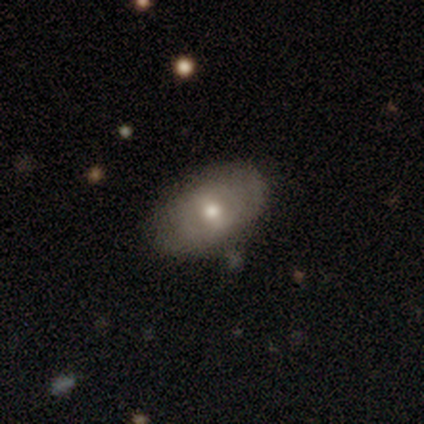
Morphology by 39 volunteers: This appears to be a smooth galaxy with no disk features (51%) that is in between round and cigar-shaped (95%). Merging: none (71%).